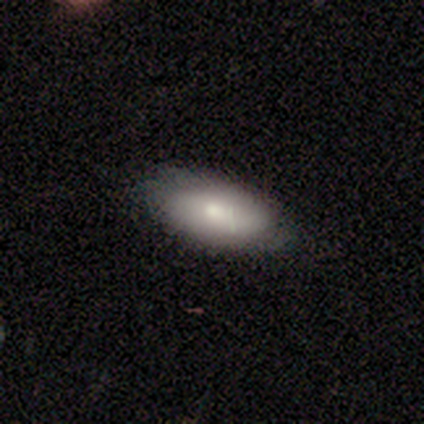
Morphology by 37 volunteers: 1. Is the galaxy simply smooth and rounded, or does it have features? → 76% smooth, 16% featured or disk, 8% star or artifact.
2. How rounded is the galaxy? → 89% in between, 11% cigar-shaped, 0% round.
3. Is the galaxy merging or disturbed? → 85% none, 15% minor disturbance, 0% major disturbance, 0% merger.